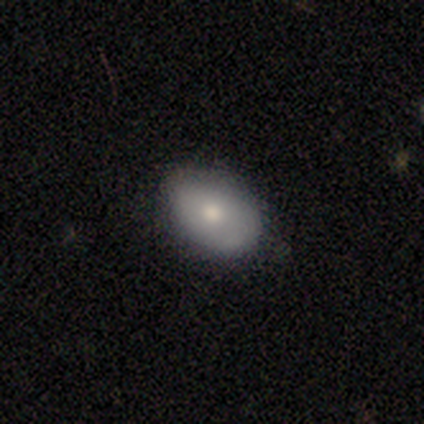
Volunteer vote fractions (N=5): Volunteers were most divided on "smooth or featured": smooth: 80%, featured or disk: 20%, star or artifact: 0%. More confident: how rounded — in between (100%); merging — none (100%).